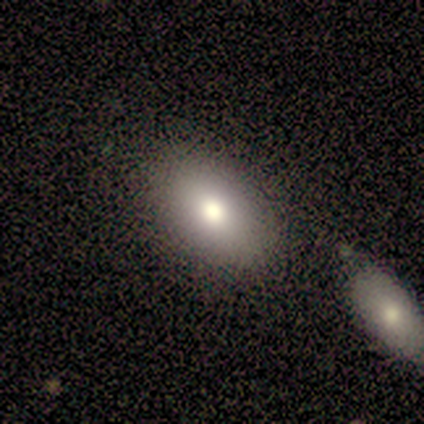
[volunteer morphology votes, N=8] smooth_or_featured: smooth (p=1.00)
how_rounded: in between (p=0.75) [alt: round p=0.25]
merging: none (p=0.88) [alt: minor disturbance p=0.12]